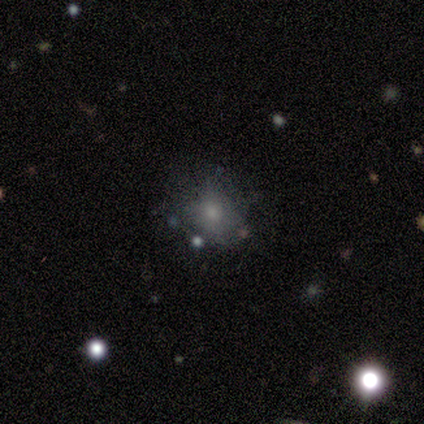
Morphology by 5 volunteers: A smooth galaxy with no disk features (40%, tied with featured or disk) that is round (100%).

Vote fractions:
- Smooth or featured? smooth: 40% (tied) / featured or disk: 40% (tied) / star or artifact: 20%
- How rounded? round: 100% / in between: 0% / cigar-shaped: 0%
- Merging? none: 75% / major disturbance: 25% / minor disturbance: 0% / merger: 0%